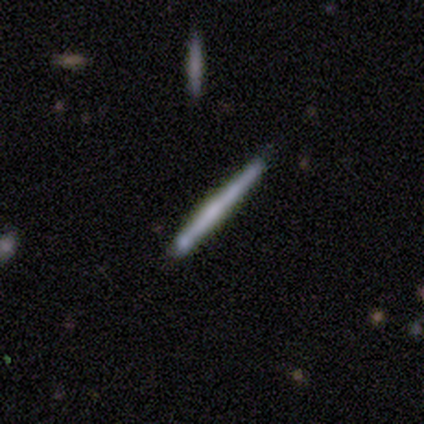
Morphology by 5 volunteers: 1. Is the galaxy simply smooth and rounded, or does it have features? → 60% featured or disk, 40% smooth, 0% star or artifact.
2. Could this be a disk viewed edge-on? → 100% yes, 0% no.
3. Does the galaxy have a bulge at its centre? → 67% rounded, 33% none, 0% boxy.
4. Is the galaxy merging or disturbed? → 60% none, 20% minor disturbance, 20% major disturbance, 0% merger.